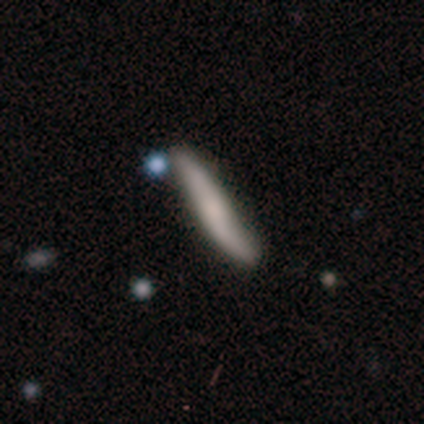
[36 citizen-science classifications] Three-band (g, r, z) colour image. It shows a featured or disk galaxy (53%) viewed edge-on (68%) with no central bulge (46%). Merging: none (70%).